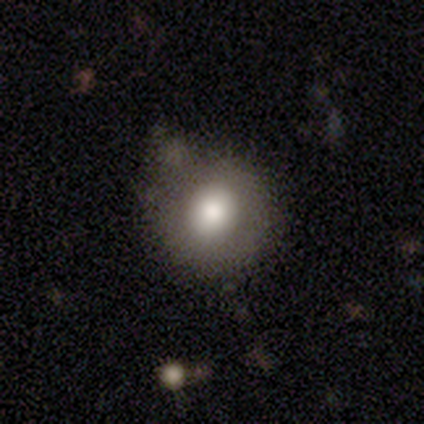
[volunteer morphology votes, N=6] type=smooth (100%); roundness=round (100%); merging=none (50%, tied with minor disturbance).